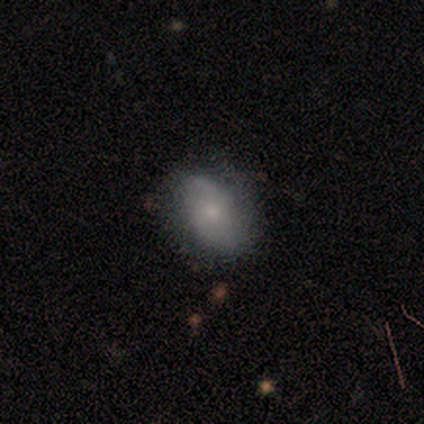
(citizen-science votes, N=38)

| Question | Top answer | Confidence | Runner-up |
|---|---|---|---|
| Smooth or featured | smooth | 61% | featured or disk (39%) |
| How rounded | in between | 74% | round (22%) |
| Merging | none | 63% | minor disturbance (26%) |